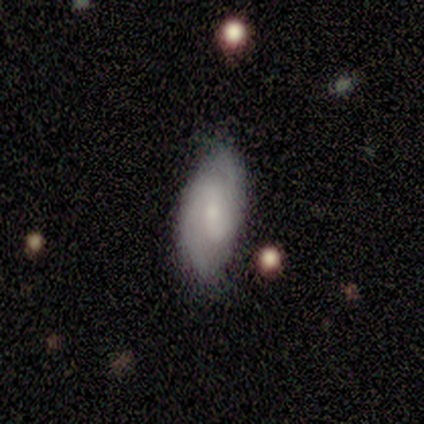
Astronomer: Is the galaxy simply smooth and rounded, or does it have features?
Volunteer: featured or disk — 60%.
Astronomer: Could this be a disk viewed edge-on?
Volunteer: no — 100%.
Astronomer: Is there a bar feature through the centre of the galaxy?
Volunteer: strong — 67%.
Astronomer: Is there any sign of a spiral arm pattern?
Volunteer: yes — 67%.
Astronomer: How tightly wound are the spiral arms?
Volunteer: medium — 100%.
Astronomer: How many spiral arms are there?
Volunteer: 2 — 100%.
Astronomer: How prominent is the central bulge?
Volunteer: moderate — 33%, tied with small and none at 33%.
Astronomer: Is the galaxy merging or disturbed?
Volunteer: none — 75%.